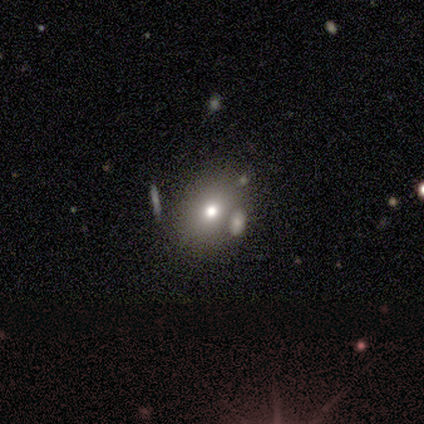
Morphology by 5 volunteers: This appears to be a star or artifact, not a galaxy (60%).